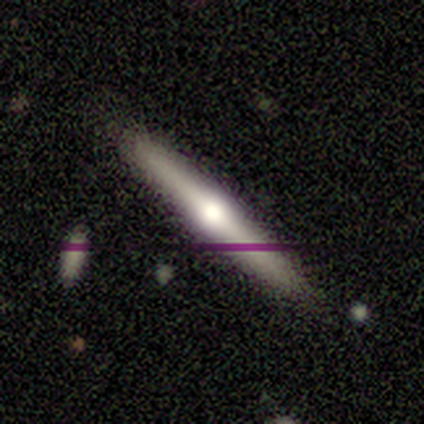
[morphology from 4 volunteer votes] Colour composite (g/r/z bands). It shows a featured or disk galaxy (100%) viewed edge-on (100%) with a rounded central bulge (100%). Merging: none (100%).